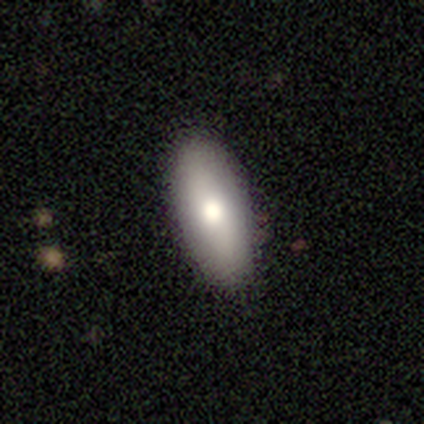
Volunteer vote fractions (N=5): Smooth or featured? 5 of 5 (100%) said smooth. How rounded? 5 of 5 (100%) said in between. Merging? 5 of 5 (100%) said none.